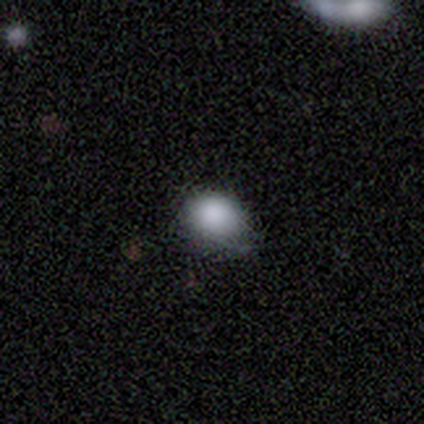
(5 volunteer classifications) smooth-or-featured: smooth: 100% | featured or disk: 0% | star or artifact: 0%
  how-rounded: in between: 60% | round: 40% | cigar-shaped: 0%
  merging: none: 80% | minor disturbance: 20% | major disturbance: 0% | merger: 0%